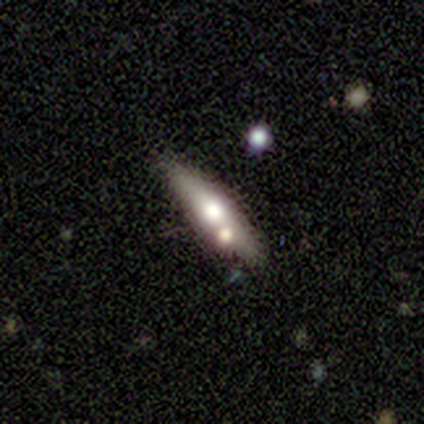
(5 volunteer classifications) Overall: featured or disk (60%; smooth 40%). Edge-on disk: yes (67%; no 33%). Edge-on bulge: rounded (100%). Merging: none (80%).